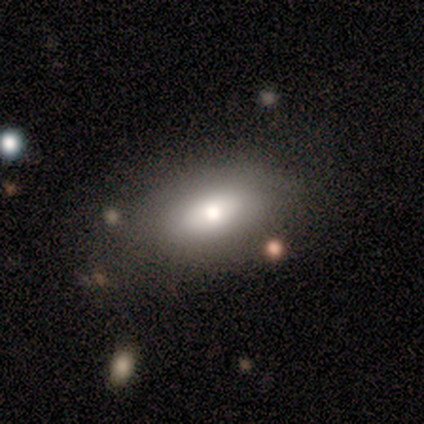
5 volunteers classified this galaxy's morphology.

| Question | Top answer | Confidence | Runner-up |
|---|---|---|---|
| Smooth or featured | smooth | 80% | featured or disk (20%) |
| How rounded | in between | 100% | — |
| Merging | minor disturbance | 60% | none (40%) |